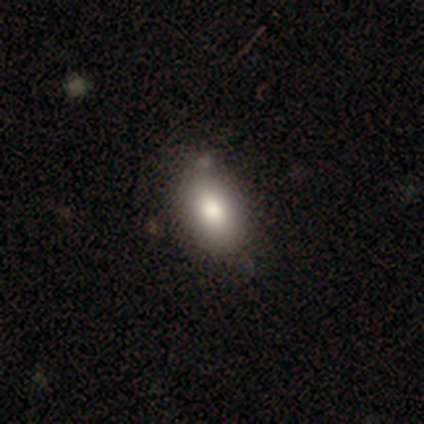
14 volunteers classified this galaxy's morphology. Smooth or featured? 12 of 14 (86%) said smooth. How rounded? 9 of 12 (75%) said in between. Merging? 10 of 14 (71%) said none.